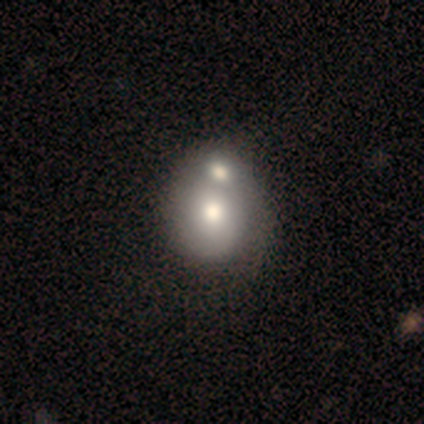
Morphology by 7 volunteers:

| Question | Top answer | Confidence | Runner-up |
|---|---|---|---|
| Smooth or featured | smooth | 86% | featured or disk (14%) |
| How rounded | round | 67% | in between (33%) |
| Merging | none | 43% | tied: merger (43%) |